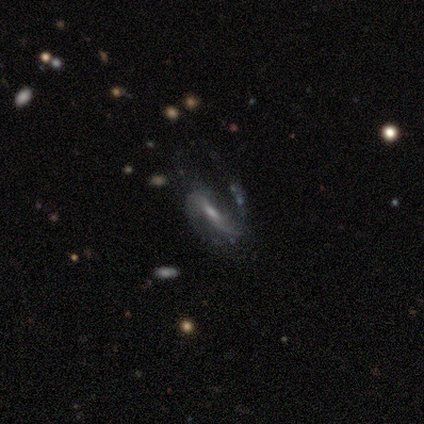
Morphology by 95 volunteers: Smooth or featured? 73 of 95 (77%) said featured or disk. Edge-on disk? 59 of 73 (81%) said no. Bar? 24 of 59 (41%) said weak. Spiral arms? 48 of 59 (81%) said yes. Spiral winding? 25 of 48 (52%) said loose. Spiral arm count? 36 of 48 (75%) said 2. Bulge size? 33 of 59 (56%) said small. Merging? 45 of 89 (51%) said none.